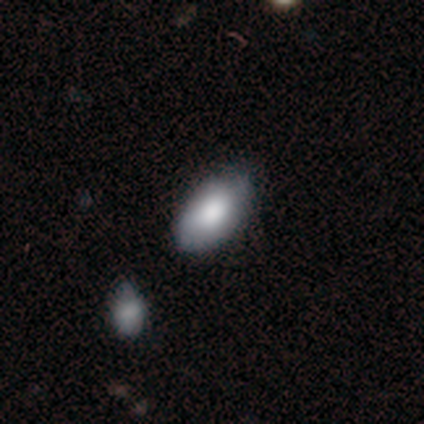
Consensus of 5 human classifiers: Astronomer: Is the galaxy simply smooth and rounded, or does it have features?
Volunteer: smooth — 80%.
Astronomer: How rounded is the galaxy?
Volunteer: in between — 100%.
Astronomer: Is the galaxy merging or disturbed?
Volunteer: minor disturbance — 50%.